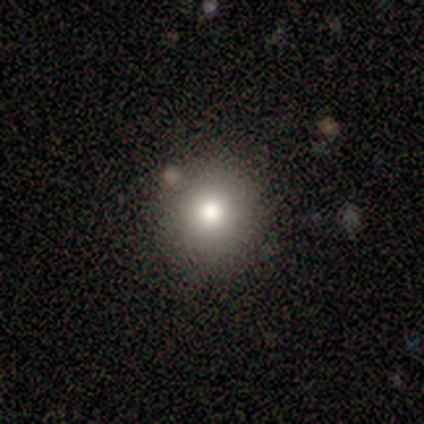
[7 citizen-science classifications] Morphology: type=smooth (86%); roundness=round (67%); merging=none (83%).